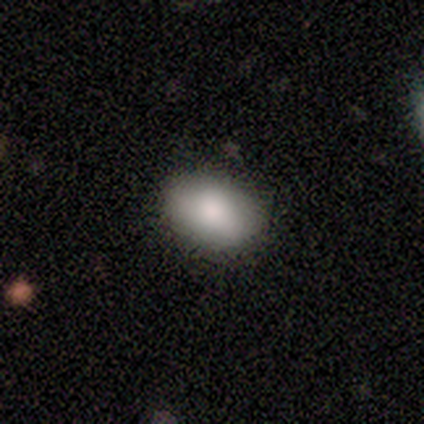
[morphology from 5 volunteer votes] smooth_or_featured: smooth (p=0.80) [alt: featured or disk p=0.20]
how_rounded: in between (p=1.00)
merging: none (p=0.80) [alt: minor disturbance p=0.20]